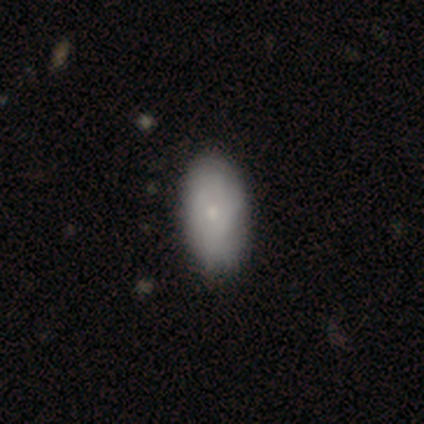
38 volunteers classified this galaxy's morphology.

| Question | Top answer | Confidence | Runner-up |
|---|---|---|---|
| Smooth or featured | smooth | 71% | featured or disk (29%) |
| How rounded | in between | 96% | cigar-shaped (4%) |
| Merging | none | 55% | minor disturbance (21%) |